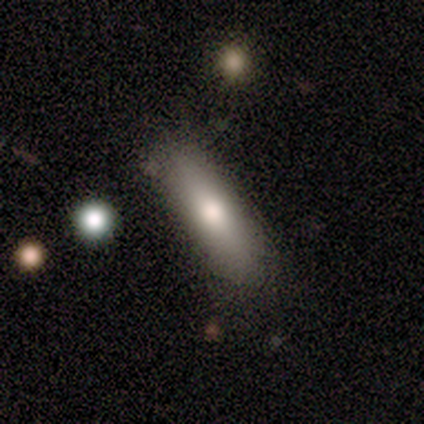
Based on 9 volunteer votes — Overall: smooth (67%). How rounded: cigar-shaped (50%; in between 33%). Merging: none (75%).